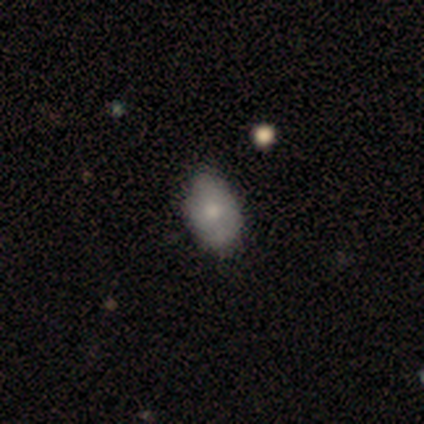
Smooth or featured? 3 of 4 (75%) said smooth. How rounded? 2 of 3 (67%) said round. Merging? 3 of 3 (100%) said none.